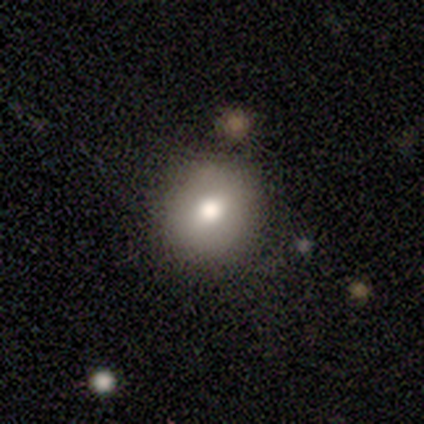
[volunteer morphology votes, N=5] Overall: smooth (80%). How rounded: round (75%). Merging: none (100%).